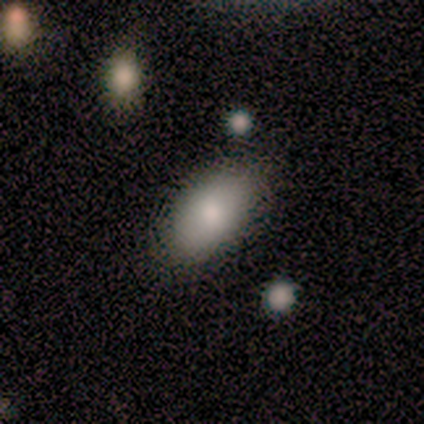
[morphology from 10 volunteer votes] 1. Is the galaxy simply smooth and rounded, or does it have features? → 90% smooth, 10% star or artifact, 0% featured or disk.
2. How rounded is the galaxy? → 100% in between, 0% round, 0% cigar-shaped.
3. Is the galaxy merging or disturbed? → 78% none, 11% minor disturbance, 11% merger, 0% major disturbance.